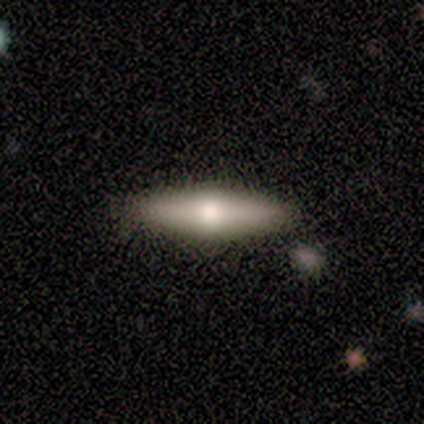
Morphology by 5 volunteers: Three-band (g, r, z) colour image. It shows a smooth galaxy with no disk features (40%, tied with featured or disk) that is in between round and cigar-shaped (50%, tied with cigar-shaped). Merging: none (75%).